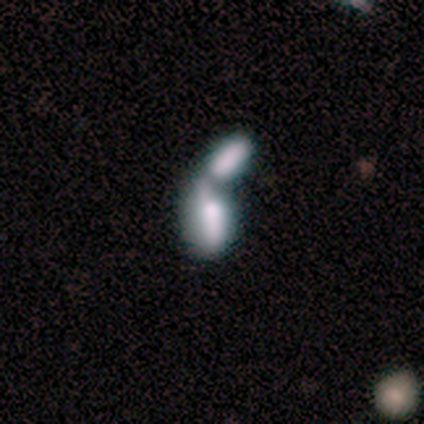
Morphology: type=featured or disk (60%); edge-on=no (67%); bar=no (100%); spiral arms=no (100%); bulge=large (50%, tied with none); merging=merger (80%).